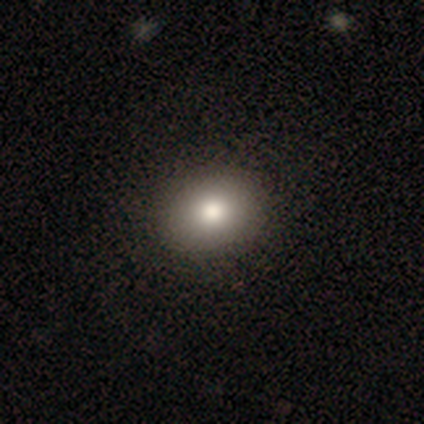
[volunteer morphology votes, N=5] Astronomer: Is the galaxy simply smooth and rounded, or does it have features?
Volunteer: smooth — 80%.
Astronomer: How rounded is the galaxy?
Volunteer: in between — 75%.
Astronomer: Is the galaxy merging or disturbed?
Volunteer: none — 100%.